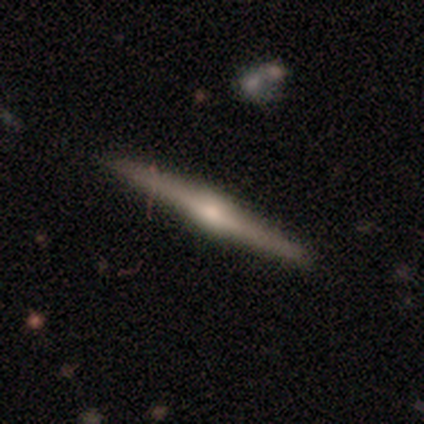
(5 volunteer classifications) This appears to be a featured or disk galaxy (100%) viewed edge-on (100%) with a rounded central bulge (80%). Merging: none (80%).